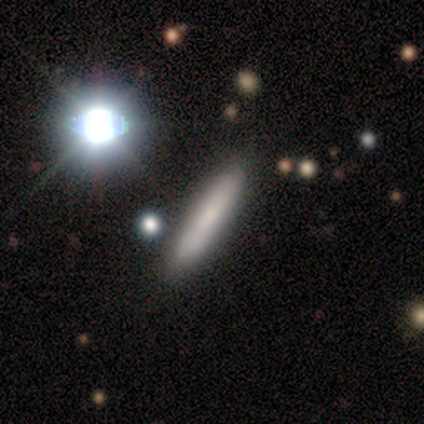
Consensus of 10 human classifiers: smooth-or-featured: smooth: 70% | featured or disk: 30% | star or artifact: 0%
  how-rounded: cigar-shaped: 86% | in between: 14% | round: 0%
  merging: none: 70% | minor disturbance: 30% | major disturbance: 0% | merger: 0%